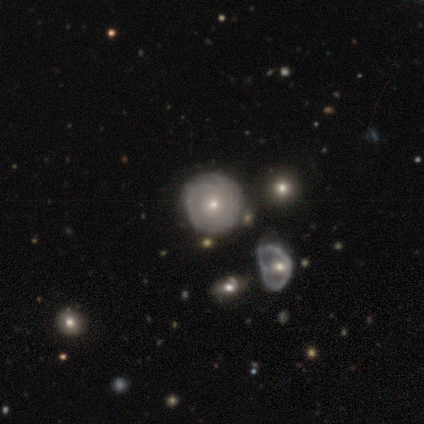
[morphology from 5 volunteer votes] This is likely a featured or disk galaxy (60%). It is clearly not viewed edge-on (100%). Bar: clearly no (100%). Spiral arm pattern: clearly yes (100%). Spiral arm count: likely can't tell (67%). Spiral winding: likely tight (67%). Central bulge: likely small (67%). Merging: clearly none (100%).